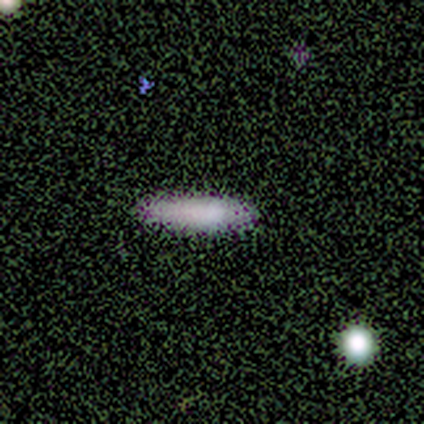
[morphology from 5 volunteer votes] smooth-or-featured: smooth: 80% | star or artifact: 20% | featured or disk: 0%
  how-rounded: cigar-shaped: 75% | in between: 25% | round: 0%
  merging: none: 50% (tied) | minor disturbance: 50% (tied) | major disturbance: 0% | merger: 0%